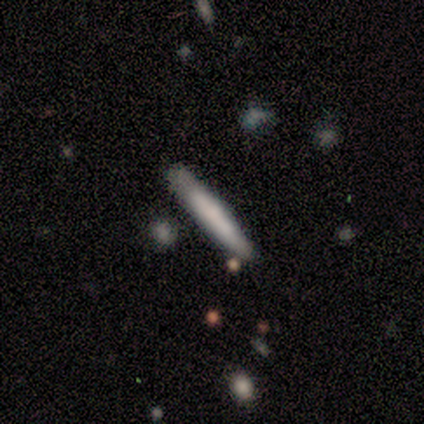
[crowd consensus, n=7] Volunteers were most divided on "smooth or featured": smooth: 71%, featured or disk: 29%, star or artifact: 0%. More confident: how rounded — cigar-shaped (100%); merging — none (86%).